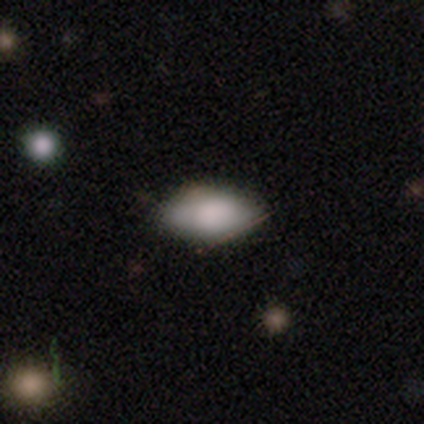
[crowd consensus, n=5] Smooth or featured? 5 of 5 (100%) said smooth. How rounded? 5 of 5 (100%) said in between. Merging? 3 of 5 (60%) said minor disturbance.